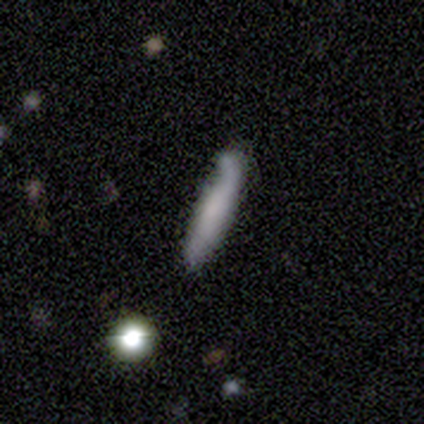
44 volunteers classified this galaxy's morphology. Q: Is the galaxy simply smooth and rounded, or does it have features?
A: smooth — 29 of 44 (66%).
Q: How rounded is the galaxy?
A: cigar-shaped — 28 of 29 (97%).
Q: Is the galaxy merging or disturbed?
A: none — 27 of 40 (68%).